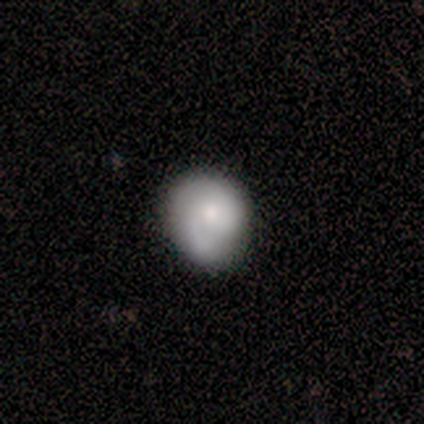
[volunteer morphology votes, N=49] A featured or disk galaxy (59%) with no bar (86%), 2 (54%) medium (46%) spiral arms (90%) and a moderate central bulge (55%).

Vote fractions:
- Smooth or featured? featured or disk: 59% / smooth: 39% / star or artifact: 2%
- Edge-on disk? no: 100% / yes: 0%
- Bar? no: 86% / weak: 14% / strong: 0%
- Spiral arms? yes: 90% / no: 10%
- Spiral winding? medium: 46% / tight: 35% / loose: 19%
- Spiral arm count? 2: 54% / 1: 27% / can't tell: 15% / 3: 4% / 4: 0% / more than 4: 0%
- Bulge size? moderate: 55% / small: 34% / large: 7% / dominant: 3% / none: 0%
- Merging? none: 54% / minor disturbance: 40% / merger: 4% / major disturbance: 2%